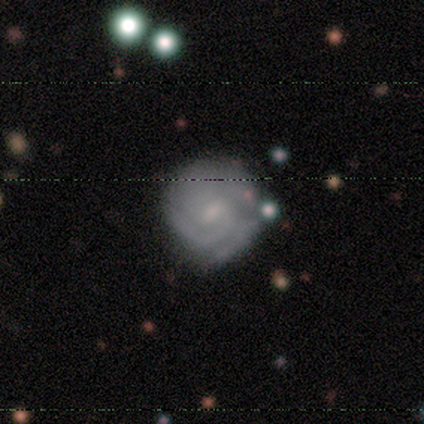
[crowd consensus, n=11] A featured or disk galaxy (73%) with a weak bar (57%), 3 (50%) tight (83%) spiral arms (86%) and a small central bulge (57%). Merging: none (89%).